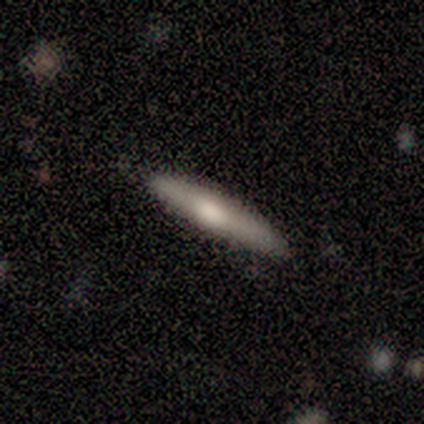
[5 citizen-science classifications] Smooth or featured? smooth (80%)
How rounded? cigar-shaped (75%)
Merging? none (100%)